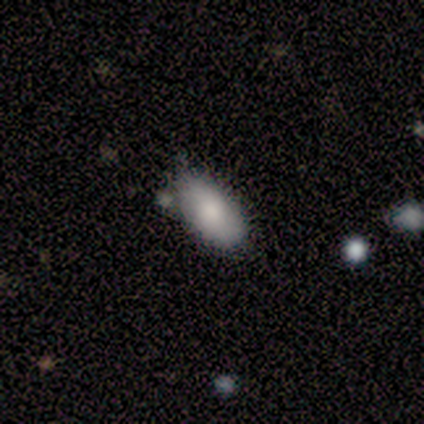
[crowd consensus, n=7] Morphology: type=smooth (100%); roundness=in between (100%); merging=none (86%).